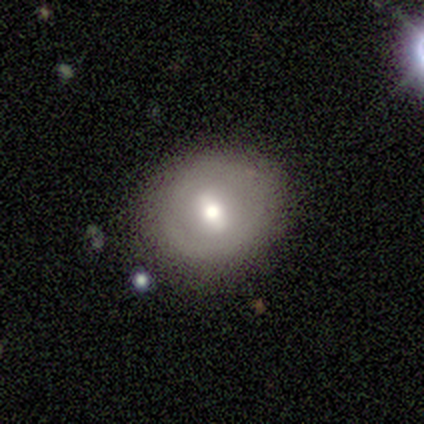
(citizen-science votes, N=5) smooth-or-featured: featured or disk: 40% (tied) | star or artifact: 40% (tied) | smooth: 20%
  disk-edge-on: no: 100% | yes: 0%
    bar: weak: 100% | strong: 0% | no: 0%
    has-spiral-arms: no: 100% | yes: 0%
    bulge-size: large: 50% (tied) | moderate: 50% (tied) | dominant: 0% | small: 0% | none: 0%
  merging: none: 67% | minor disturbance: 33% | major disturbance: 0% | merger: 0%